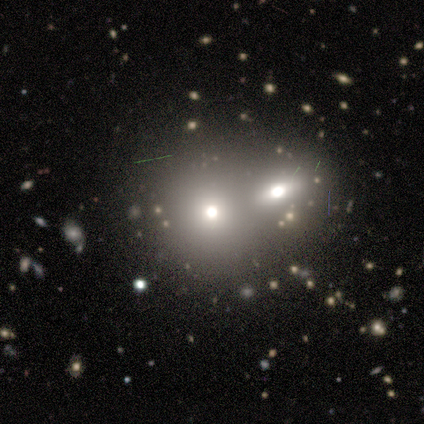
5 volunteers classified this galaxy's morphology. type=smooth (80%); roundness=round (50%, tied with in between); merging=merger (80%).